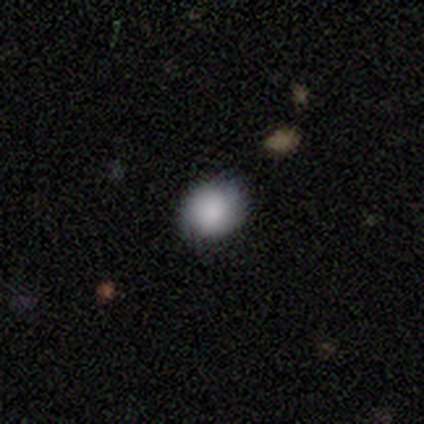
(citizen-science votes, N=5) A smooth galaxy with no disk features (80%) that is round (50%, tied with in between).

Vote fractions:
- Smooth or featured? smooth: 80% / featured or disk: 20% / star or artifact: 0%
- How rounded? round: 50% (tied) / in between: 50% (tied) / cigar-shaped: 0%
- Merging? none: 60% / minor disturbance: 40% / major disturbance: 0% / merger: 0%